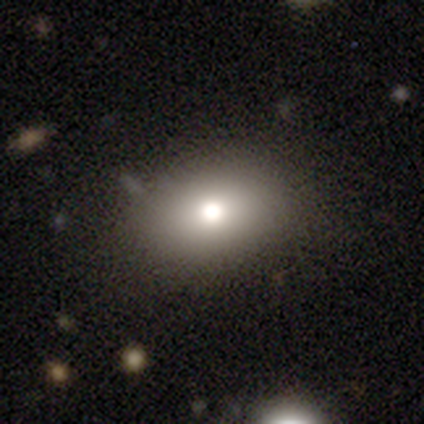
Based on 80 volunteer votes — Smooth or featured? smooth (84%)
How rounded? in between (66%)
Merging? none (46%)